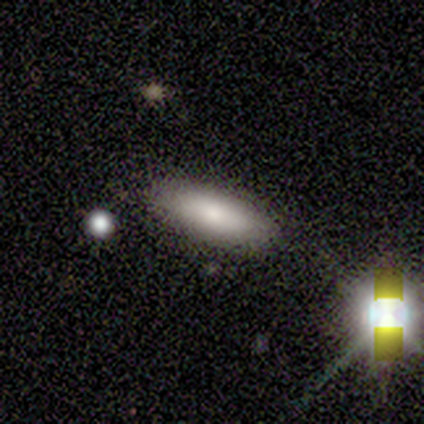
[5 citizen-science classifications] This appears to be a smooth galaxy with no disk features (60%) that is in between round and cigar-shaped (100%). Merging: none (100%).